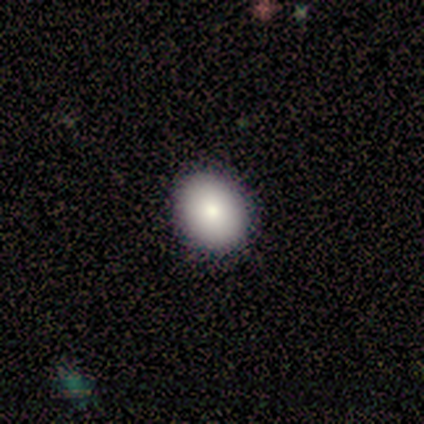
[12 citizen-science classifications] Smooth or featured? smooth (83%)
How rounded? in between (60%)
Merging? none (100%)